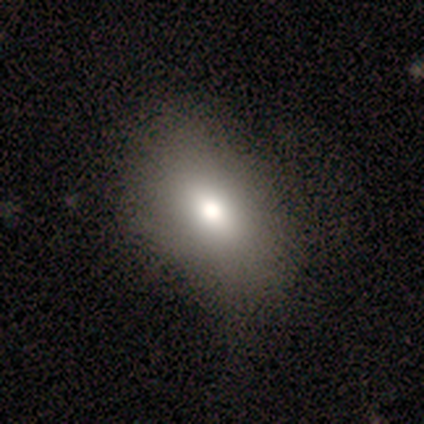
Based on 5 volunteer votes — Smooth or featured?
  - smooth: 60% *
  - star or artifact: 40%
  - featured or disk: 0%
How rounded?
  - in between: 67% *
  - round: 33%
  - cigar-shaped: 0%
Merging?
  - none: 100% *
  - minor disturbance: 0%
  - major disturbance: 0%
  - merger: 0%